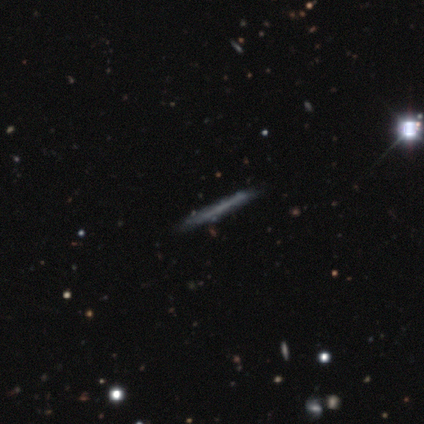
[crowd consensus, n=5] Overall: smooth (60%; featured or disk 20%). How rounded: cigar-shaped (100%). Merging: none (75%).